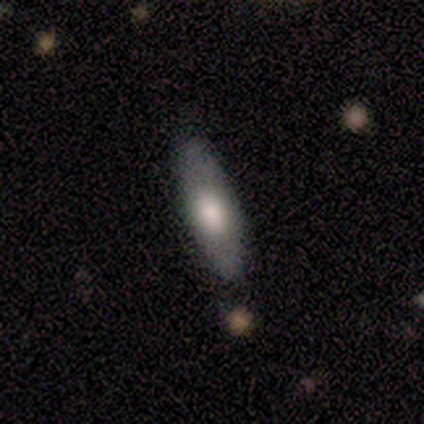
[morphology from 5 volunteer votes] This appears to be a smooth galaxy with no disk features (80%) that is cigar-shaped (75%). Merging: none (80%).